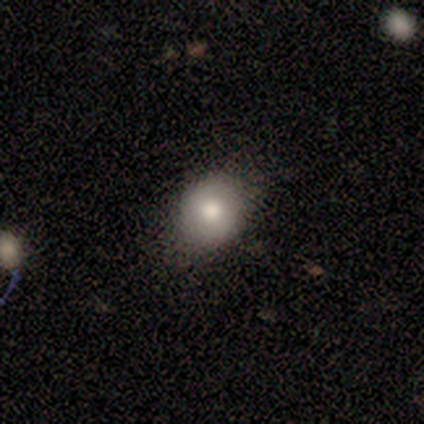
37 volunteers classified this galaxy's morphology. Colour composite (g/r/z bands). It shows a smooth galaxy with no disk features (68%) that is round (76%). Merging: none (88%).